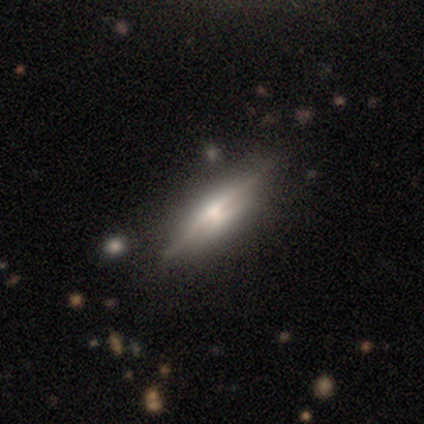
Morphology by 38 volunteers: Smooth or featured?
  - featured or disk: 82% *
  - smooth: 18%
  - star or artifact: 0%
Edge-on disk?
  - yes: 94% *
  - no: 6%
Edge-on bulge?
  - rounded: 66% *
  - boxy: 31%
  - none: 3%
Merging?
  - none: 84% *
  - minor disturbance: 13%
  - major disturbance: 3%
  - merger: 0%